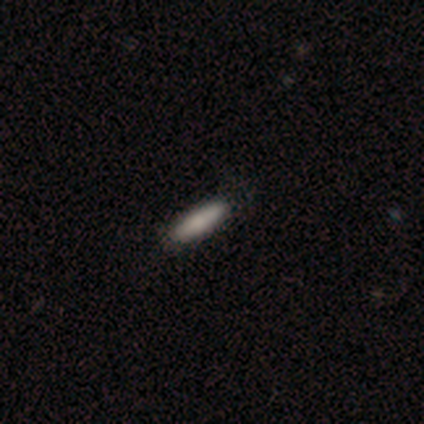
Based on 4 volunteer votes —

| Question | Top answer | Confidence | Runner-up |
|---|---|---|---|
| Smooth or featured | smooth | 100% | — |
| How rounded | cigar-shaped | 75% | in between (25%) |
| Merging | none | 100% | — |